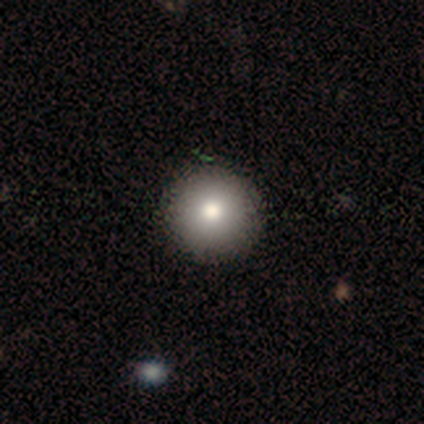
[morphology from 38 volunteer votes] Overall: smooth (84%). How rounded: round (100%). Merging: none (71%).